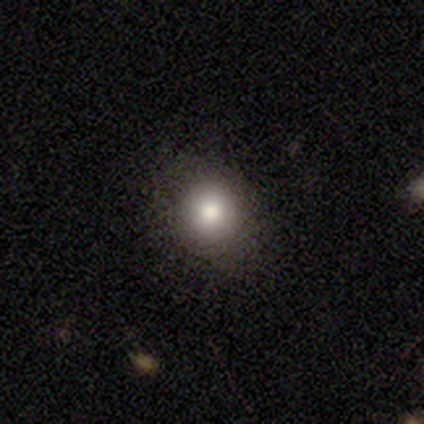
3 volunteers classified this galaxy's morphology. This appears to be a smooth galaxy with no disk features (100%) that is round (100%). Merging: minor disturbance (67%).